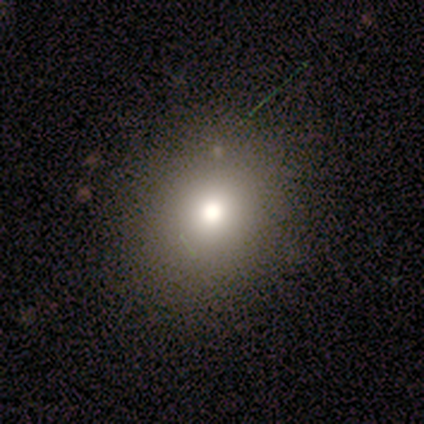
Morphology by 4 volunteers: This is likely a smooth galaxy (75%). How rounded: likely round (67%). Merging: clearly none (100%).